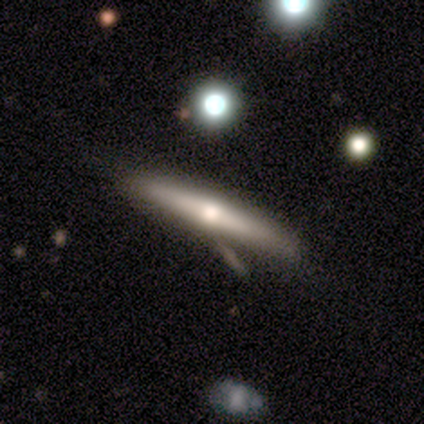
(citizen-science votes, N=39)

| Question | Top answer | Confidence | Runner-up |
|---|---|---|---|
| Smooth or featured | featured or disk | 54% | smooth (44%) |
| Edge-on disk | yes | 90% | no (10%) |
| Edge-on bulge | rounded | 74% | none (21%) |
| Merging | none | 55% | merger (24%) |